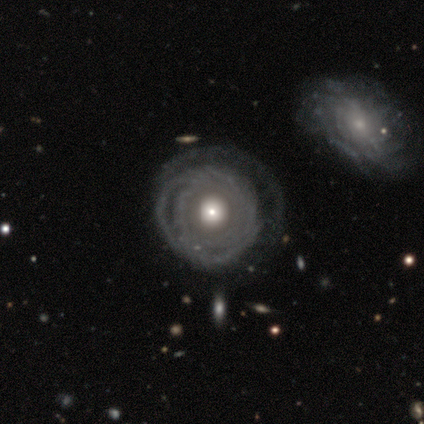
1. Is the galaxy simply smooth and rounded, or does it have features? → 90% featured or disk, 8% smooth, 3% star or artifact.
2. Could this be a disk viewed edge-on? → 97% no, 3% yes.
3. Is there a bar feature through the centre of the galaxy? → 91% no, 6% weak, 3% strong.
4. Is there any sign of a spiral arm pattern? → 82% yes, 18% no.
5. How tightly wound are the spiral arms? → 93% tight, 4% medium, 4% loose.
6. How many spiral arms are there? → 50% can't tell, 18% 2, 18% 3, 11% 1, 4% more than 4, 0% 4.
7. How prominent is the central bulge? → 47% moderate, 29% large, 18% small, 3% dominant, 3% none.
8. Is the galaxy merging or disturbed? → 55% none, 18% major disturbance, 8% merger, 5% minor disturbance.